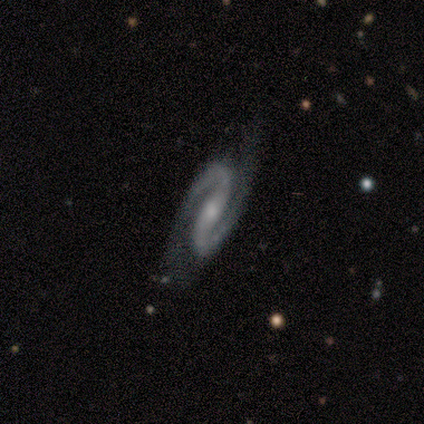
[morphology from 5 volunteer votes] Smooth or featured? 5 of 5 (100%) said featured or disk. Edge-on disk? 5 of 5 (100%) said no. Bar? 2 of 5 (40%, tied with no) said weak. Spiral arms? 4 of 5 (80%) said yes. Spiral winding? 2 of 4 (50%) said medium. Spiral arm count? 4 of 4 (100%) said 2. Bulge size? 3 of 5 (60%) said moderate. Merging? 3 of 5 (60%) said none.